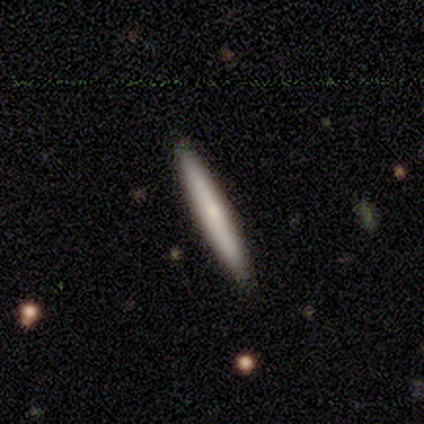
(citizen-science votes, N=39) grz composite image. It shows a smooth galaxy with no disk features (62%) that is cigar-shaped (96%). Merging: none (92%).